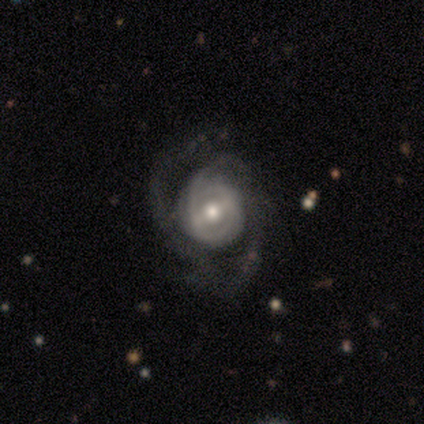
smooth-or-featured: featured or disk: 97% | star or artifact: 3% | smooth: 0%
  disk-edge-on: no: 100% | yes: 0%
    bar: strong: 39% | weak: 37% | no: 24%
    has-spiral-arms: yes: 92% | no: 8%
      spiral-winding: medium: 49% | tight: 37% | loose: 14%
      spiral-arm-count: 2: 34% | can't tell: 26% | 1: 23% | 3: 14% | 4: 3% | more than 4: 0%
    bulge-size: moderate: 68% | small: 24% | large: 5% | dominant: 3% | none: 0%
  merging: none: 45% | major disturbance: 32% | minor disturbance: 24% | merger: 0%